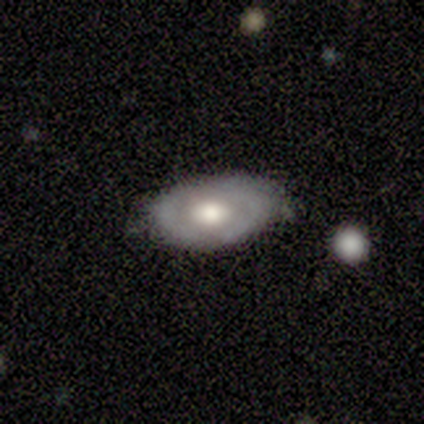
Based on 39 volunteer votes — smooth_or_featured: featured or disk (p=0.69) [alt: smooth p=0.26]
disk_edge_on: no (p=0.93) [alt: yes p=0.07]
bar: no (p=0.72) [alt: weak p=0.28]
has_spiral_arms: no (p=0.68) [alt: yes p=0.32]
bulge_size: large (p=0.52) [alt: moderate p=0.40]
merging: none (p=0.73) [alt: minor disturbance p=0.22]